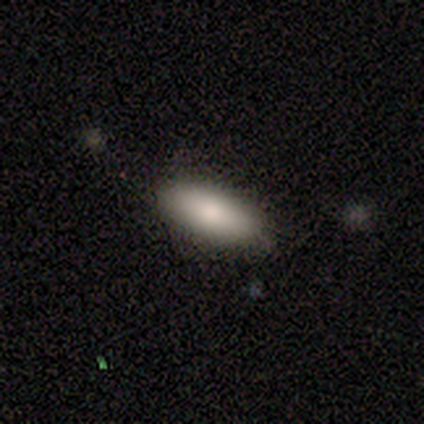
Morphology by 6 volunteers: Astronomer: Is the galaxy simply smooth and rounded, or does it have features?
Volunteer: smooth — 100%.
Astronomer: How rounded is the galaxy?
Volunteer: in between — 83%.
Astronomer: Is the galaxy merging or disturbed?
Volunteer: none — 100%.